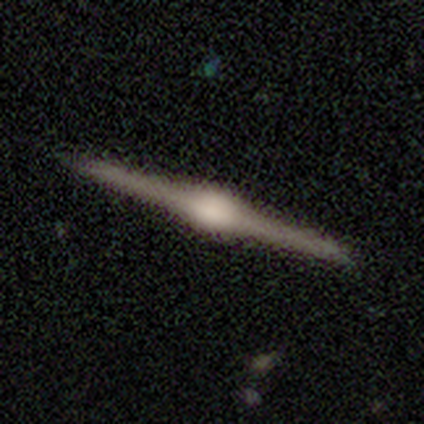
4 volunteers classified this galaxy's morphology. Q: Smooth or featured?
A: featured or disk (100%)
Q: Edge-on disk?
A: yes (100%)
Q: Edge-on bulge?
A: rounded (100%)
Q: Merging?
A: none (100%)